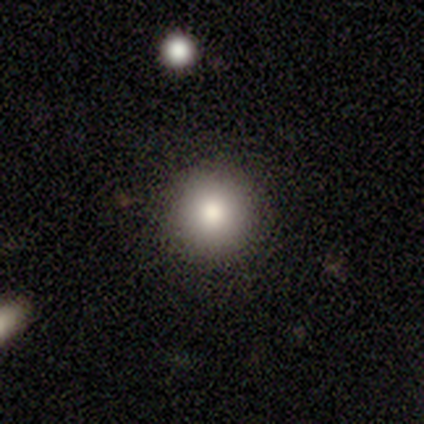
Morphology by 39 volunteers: Volunteers were most divided on "merging": none: 74%, major disturbance: 3%, minor disturbance: 0%, merger: 0%. More confident: smooth or featured — smooth (95%); how rounded — round (95%).